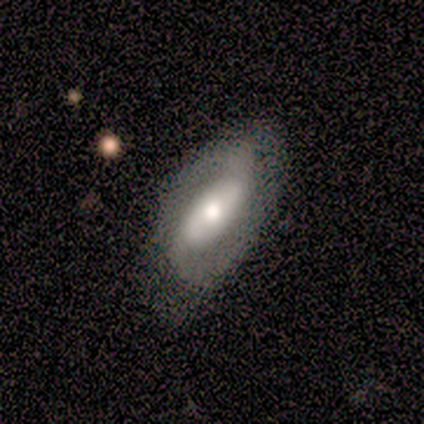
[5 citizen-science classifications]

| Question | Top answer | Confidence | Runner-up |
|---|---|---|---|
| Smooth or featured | featured or disk | 60% | smooth (20%) |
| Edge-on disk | no | 67% | yes (33%) |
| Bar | weak | 50% | tied: no (50%) |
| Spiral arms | yes | 100% | — |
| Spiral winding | tight | 50% | tied: medium (50%) |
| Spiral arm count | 2 | 100% | — |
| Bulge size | large | 50% | tied: moderate (50%) |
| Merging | none | 75% | minor disturbance (25%) |